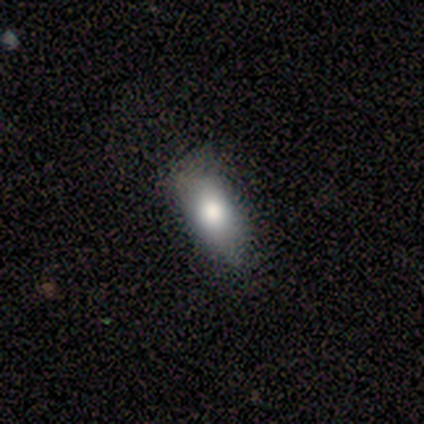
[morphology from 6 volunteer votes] smooth_or_featured: smooth (p=0.83) [alt: featured or disk p=0.17]
how_rounded: in between (p=1.00)
merging: none (p=0.50) [tied with: minor disturbance p=0.50]